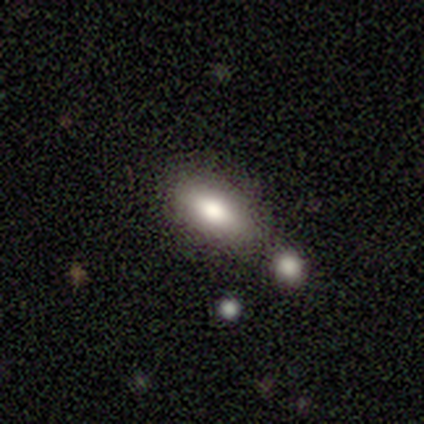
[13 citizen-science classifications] A smooth galaxy with no disk features (54%) that is in between round and cigar-shaped (86%). Merging: none (67%).